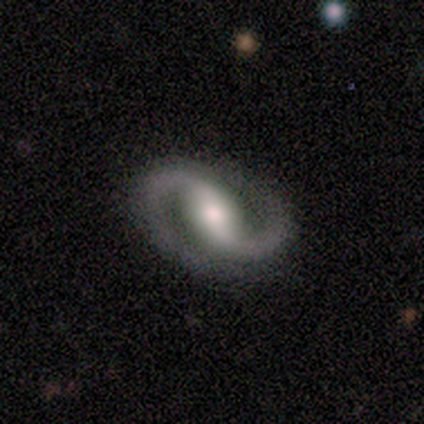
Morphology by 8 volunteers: type=featured or disk (88%); edge-on=no (100%); bar=weak (57%); spiral arms=yes (100%); winding=medium (71%); arm count=2 (100%); bulge=moderate (71%); merging=none (75%).